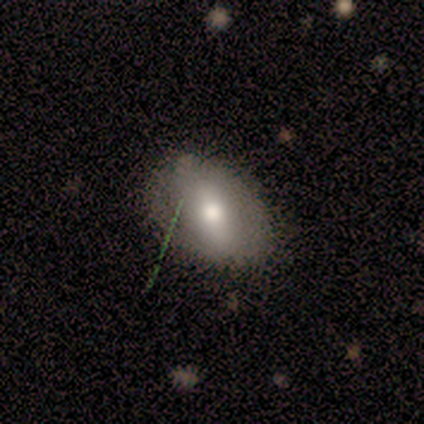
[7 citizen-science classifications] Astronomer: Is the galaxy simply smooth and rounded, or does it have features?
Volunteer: smooth — 57% (runner-up: featured or disk, 43%).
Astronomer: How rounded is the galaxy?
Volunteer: in between — 100%.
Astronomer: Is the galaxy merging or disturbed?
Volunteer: none — 57%.